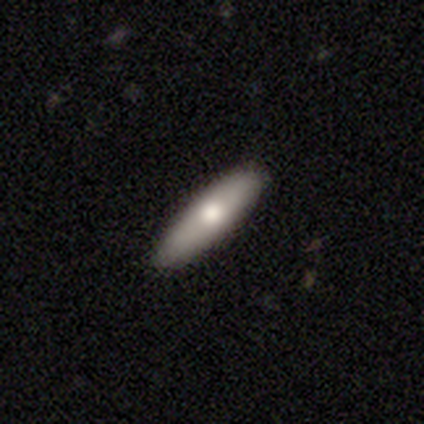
Volunteers were most divided on "how rounded" (2-way tie): in between: 50%, cigar-shaped: 50%, round: 0%. More confident: smooth or featured — smooth (80%); merging — none (60%).